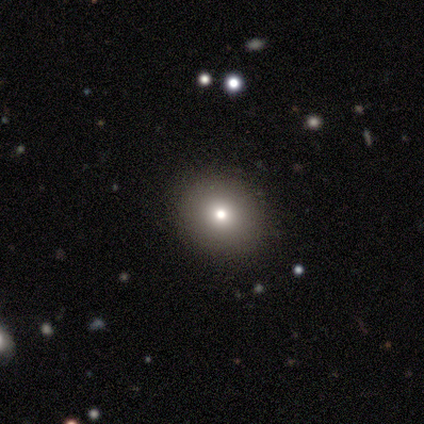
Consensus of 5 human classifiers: A smooth galaxy with no disk features (60%) that is round (100%). Merging: none (100%).